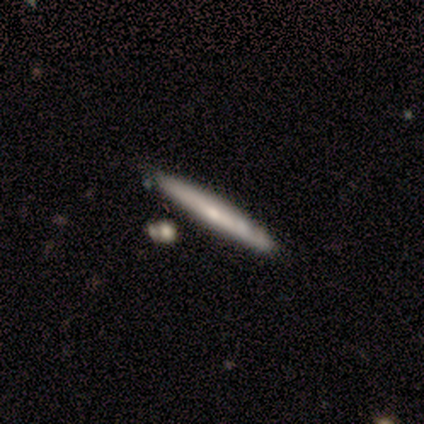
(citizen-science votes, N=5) Smooth or featured? featured or disk (80%)
Edge-on disk? yes (100%)
Edge-on bulge? rounded (75%)
Merging? none (60%)